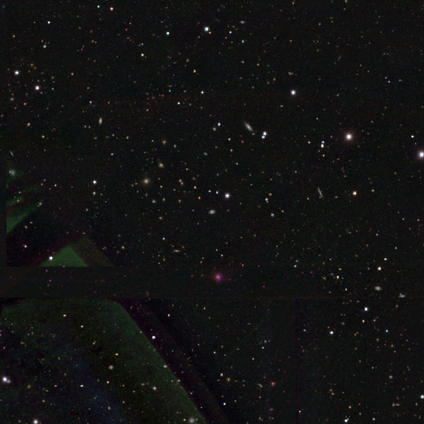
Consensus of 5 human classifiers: Smooth or featured? 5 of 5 (100%) said star or artifact.